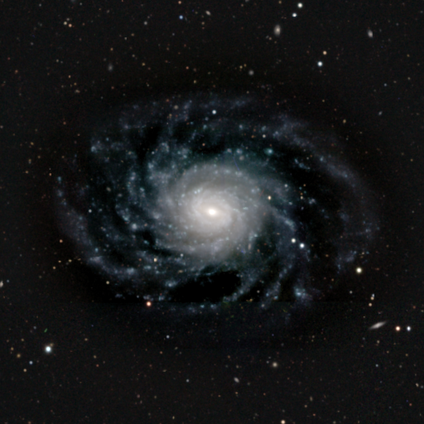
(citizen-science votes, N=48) Morphology: type=featured or disk (94%); edge-on=no (96%); bar=no (56%); spiral arms=yes (100%); winding=tight (60%); arm count=more than 4 (84%); bulge=moderate (49%); merging=none (72%).